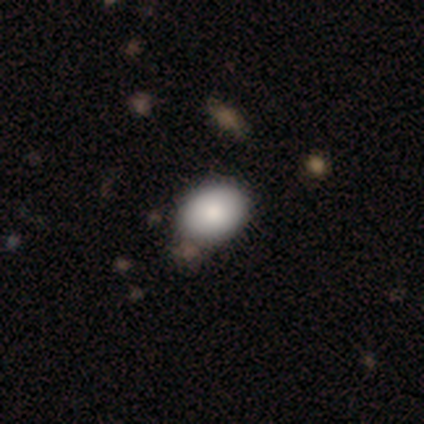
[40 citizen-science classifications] smooth-or-featured: smooth: 80% | featured or disk: 10% | star or artifact: 10%
  how-rounded: in between: 78% | round: 22% | cigar-shaped: 0%
  merging: none: 61% | minor disturbance: 14% | merger: 11% | major disturbance: 0%